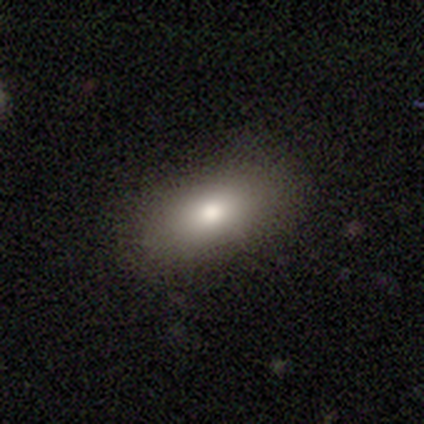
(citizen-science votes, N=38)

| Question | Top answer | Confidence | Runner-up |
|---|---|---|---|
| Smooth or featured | smooth | 84% | featured or disk (11%) |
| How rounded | in between | 91% | round (6%) |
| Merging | none | 89% | minor disturbance (11%) |